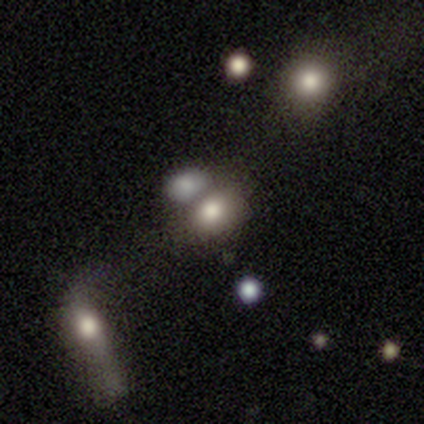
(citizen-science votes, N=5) A star or artifact, not a galaxy (60%).